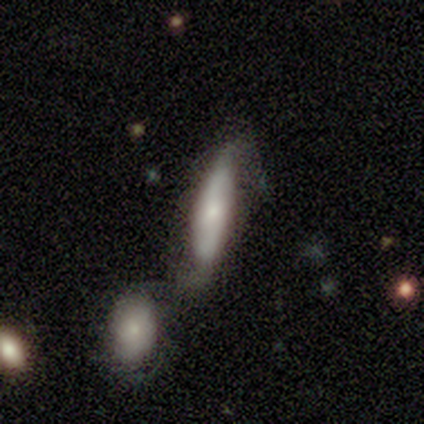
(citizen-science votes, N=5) smooth-or-featured: smooth: 60% | featured or disk: 40% | star or artifact: 0%
  how-rounded: cigar-shaped: 100% | round: 0% | in between: 0%
  merging: merger: 60% | none: 20% | major disturbance: 20% | minor disturbance: 0%